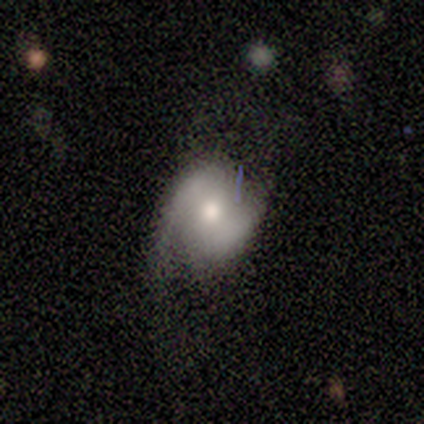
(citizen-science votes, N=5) Smooth or featured: smooth — 60% (featured or disk — 40%)
How rounded: round — 100%
Merging: none — 80% (major disturbance — 20%)